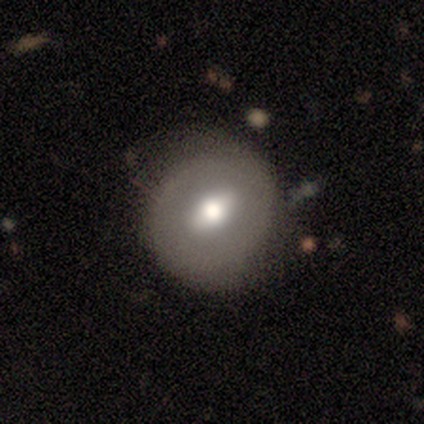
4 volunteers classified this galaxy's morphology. Volunteers were most divided on "smooth or featured": smooth: 75%, featured or disk: 25%, star or artifact: 0%. More confident: how rounded — round (100%); merging — none (75%).